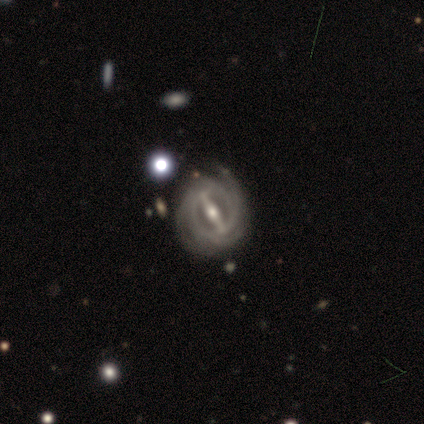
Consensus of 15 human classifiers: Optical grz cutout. It shows a featured or disk galaxy (93%) with a strong bar (92%), 4 (45%) tight (82%) spiral arms (85%) and a moderate central bulge (85%). Merging: none (79%).